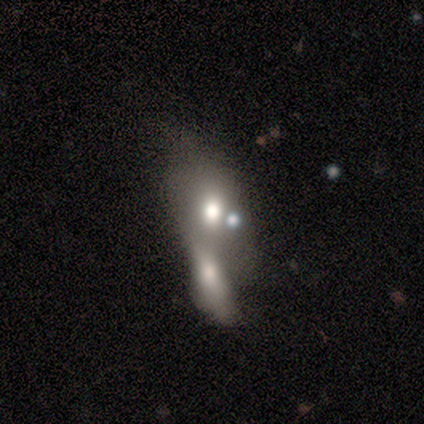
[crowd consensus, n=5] Morphology: type=smooth (60%); roundness=in between (100%); merging=merger (100%).